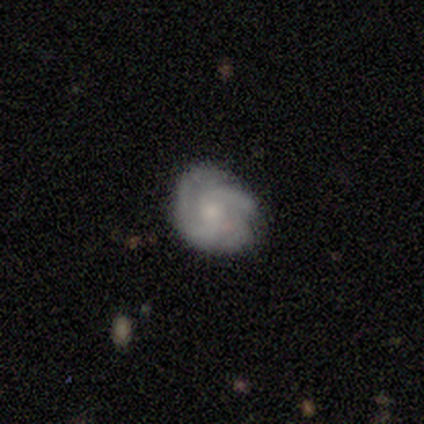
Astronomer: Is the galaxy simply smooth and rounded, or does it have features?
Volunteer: featured or disk — 75%.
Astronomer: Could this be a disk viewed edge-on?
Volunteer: no — 97%.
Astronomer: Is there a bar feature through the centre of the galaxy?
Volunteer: no — 69%.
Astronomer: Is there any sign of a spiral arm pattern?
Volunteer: yes — 100%.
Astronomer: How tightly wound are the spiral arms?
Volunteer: medium — 52% (runner-up: tight, 48%).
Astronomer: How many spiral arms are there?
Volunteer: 3 — 55%.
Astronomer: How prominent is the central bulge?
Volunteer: small — 55% (runner-up: moderate, 45%).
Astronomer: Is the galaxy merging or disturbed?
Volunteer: none — 67%.